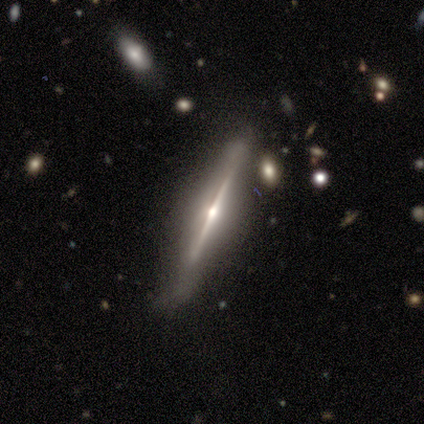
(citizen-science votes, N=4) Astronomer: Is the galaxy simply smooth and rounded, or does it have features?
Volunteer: featured or disk — 100%.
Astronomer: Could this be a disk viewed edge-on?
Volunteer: yes — 100%.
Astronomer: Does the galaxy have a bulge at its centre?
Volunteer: rounded — 100%.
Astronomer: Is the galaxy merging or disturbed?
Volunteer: none — 50%.